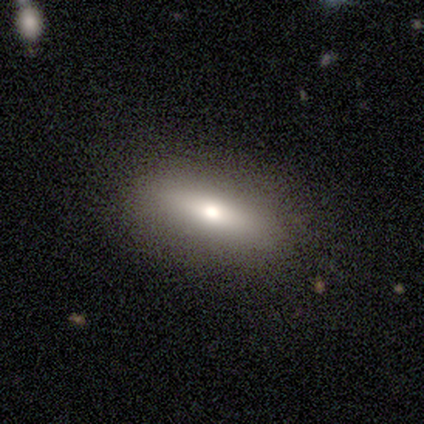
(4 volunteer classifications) Volunteers were most divided on "smooth or featured" (2-way tie): smooth: 50%, featured or disk: 50%, star or artifact: 0%; "how rounded" (2-way tie): in between: 50%, cigar-shaped: 50%, round: 0%. More confident: merging — none (100%).